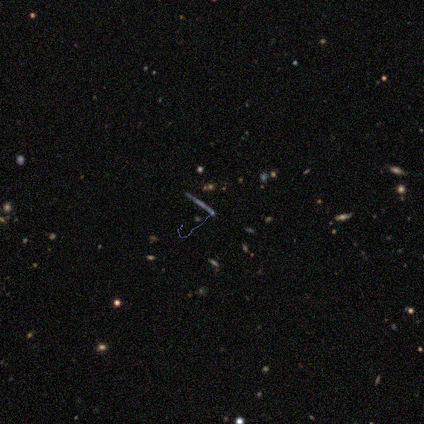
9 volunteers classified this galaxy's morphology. This is likely a star or artifact rather than a galaxy (67%).